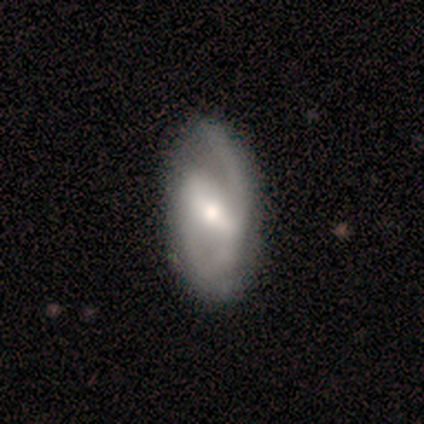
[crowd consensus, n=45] Morphology: type=featured or disk (73%); edge-on=no (91%); bar=strong (53%); spiral arms=yes (83%); winding=medium (48%); arm count=2 (84%); bulge=moderate (60%); merging=none (58%).